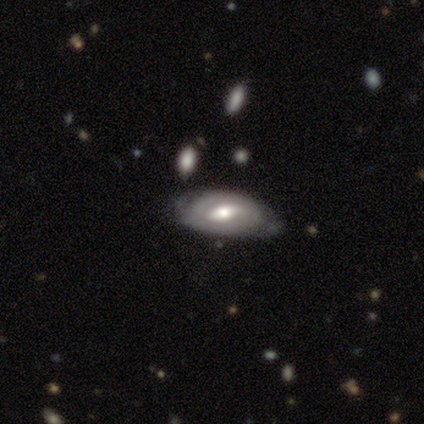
smooth-or-featured: featured or disk: 67% | smooth: 33% | star or artifact: 0%
  disk-edge-on: no: 100% | yes: 0%
    bar: no: 100% | strong: 0% | weak: 0%
    has-spiral-arms: yes: 50% (tied) | no: 50% (tied)
      spiral-winding: tight: 100% | medium: 0% | loose: 0%
      spiral-arm-count: can't tell: 100% | 1: 0% | 2: 0% | 3: 0% | 4: 0% | more than 4: 0%
    bulge-size: moderate: 100% | dominant: 0% | large: 0% | small: 0% | none: 0%
  merging: none: 33% (tied) | major disturbance: 33% (tied) | merger: 33% (tied) | minor disturbance: 0%